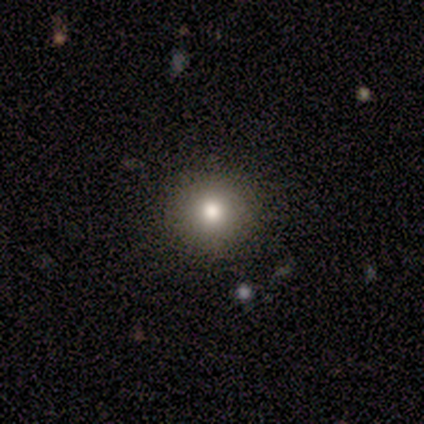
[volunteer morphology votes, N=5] Q: Smooth or featured?
A: smooth (80%); runner-up: featured or disk (20%)
Q: How rounded?
A: round (100%)
Q: Merging?
A: none (100%)